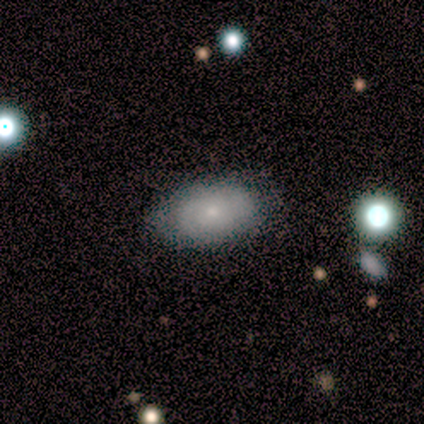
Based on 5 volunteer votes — smooth_or_featured: smooth (p=1.00)
how_rounded: in between (p=1.00)
merging: none (p=0.60) [alt: minor disturbance p=0.20]